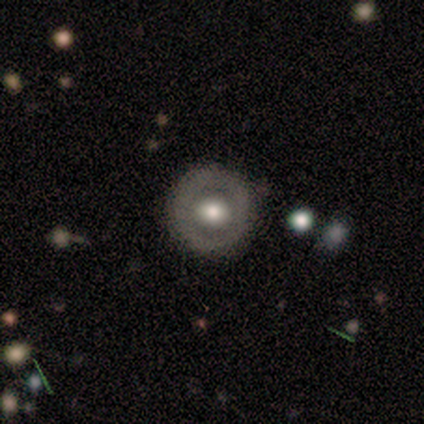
Smooth or featured? featured or disk (75%)
Edge-on disk? no (100%)
Bar? no (67%)
Spiral arms? no (100%)
Bulge size? large (67%)
Merging? none (50%, tied with minor disturbance)